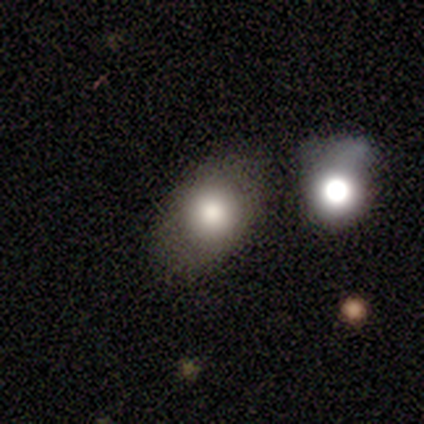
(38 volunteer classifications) Smooth or featured?
  - smooth: 76% *
  - featured or disk: 16%
  - star or artifact: 8%
How rounded?
  - in between: 55% *
  - round: 45%
  - cigar-shaped: 0%
Merging?
  - none: 63% *
  - minor disturbance: 23%
  - major disturbance: 14%
  - merger: 0%